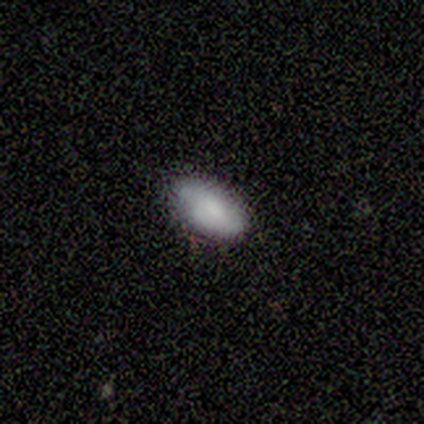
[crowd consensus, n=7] A smooth galaxy with no disk features (100%) that is in between round and cigar-shaped (71%).

Vote fractions:
- Smooth or featured? smooth: 100% / featured or disk: 0% / star or artifact: 0%
- How rounded? in between: 71% / cigar-shaped: 29% / round: 0%
- Merging? none: 100% / minor disturbance: 0% / major disturbance: 0% / merger: 0%